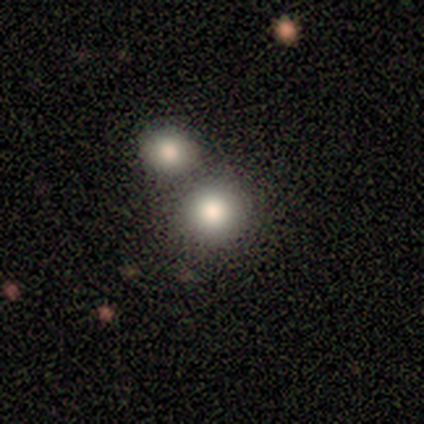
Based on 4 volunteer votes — This is clearly a smooth galaxy (100%). How rounded: clearly round (100%). Merging: possibly none (50%).